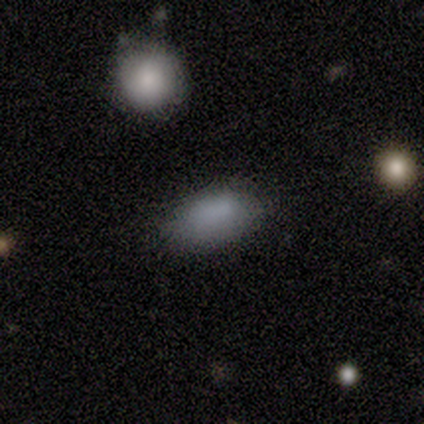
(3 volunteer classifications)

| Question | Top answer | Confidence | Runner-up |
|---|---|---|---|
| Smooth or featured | smooth | 67% | star or artifact (33%) |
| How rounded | in between | 100% | — |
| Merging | none | 100% | — |